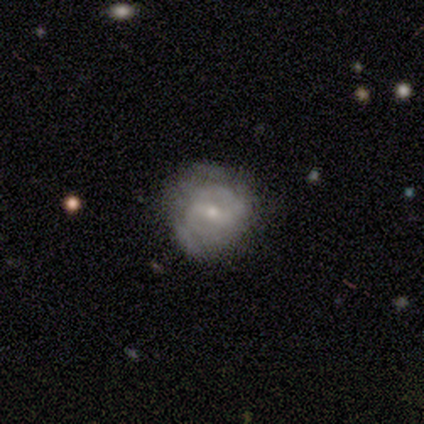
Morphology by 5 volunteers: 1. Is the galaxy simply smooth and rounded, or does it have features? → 80% featured or disk, 20% smooth, 0% star or artifact.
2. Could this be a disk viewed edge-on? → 100% no, 0% yes.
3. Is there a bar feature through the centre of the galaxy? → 50% weak, 25% strong, 25% no.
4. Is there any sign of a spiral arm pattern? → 75% yes, 25% no.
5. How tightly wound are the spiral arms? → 67% tight, 33% medium, 0% loose.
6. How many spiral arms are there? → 67% 2, 33% can't tell, 0% 1, 0% 3, 0% 4, 0% more than 4.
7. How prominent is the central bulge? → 100% small, 0% dominant, 0% large, 0% moderate, 0% none.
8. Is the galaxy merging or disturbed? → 40% none (tied), 40% major disturbance (tied), 20% minor disturbance, 0% merger.